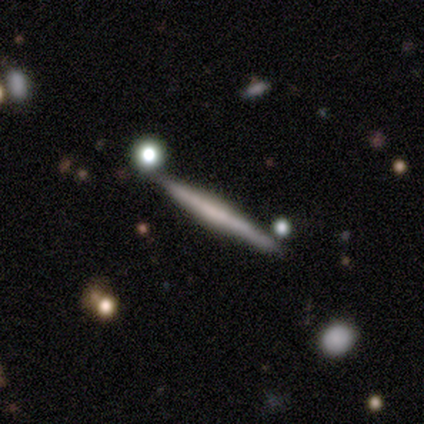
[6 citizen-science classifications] Smooth or featured? 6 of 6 (100%) said featured or disk. Edge-on disk? 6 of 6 (100%) said yes. Edge-on bulge? 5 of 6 (83%) said boxy. Merging? 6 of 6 (100%) said none.